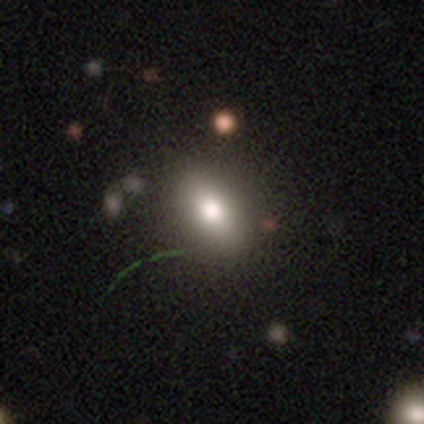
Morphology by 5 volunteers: Volunteers were most divided on "smooth or featured": smooth: 60%, star or artifact: 40%, featured or disk: 0%. More confident: how rounded — in between (67%); merging — none (67%).